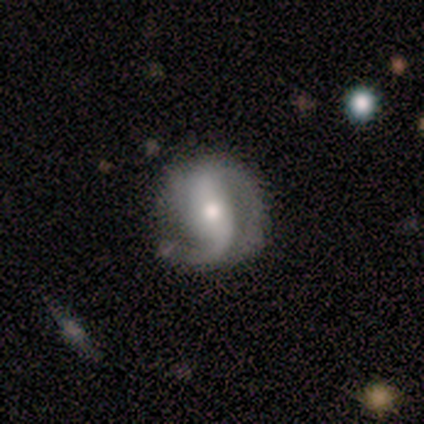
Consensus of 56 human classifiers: A featured or disk galaxy (82%) with no bar (45%), 2 (80%) loose (51%) spiral arms (93%) and a moderate central bulge (70%).

Vote fractions:
- Smooth or featured? featured or disk: 82% / smooth: 12% / star or artifact: 5%
- Edge-on disk? no: 96% / yes: 4%
- Bar? no: 45% / strong: 34% / weak: 20%
- Spiral arms? yes: 93% / no: 7%
- Spiral winding? loose: 51% / medium: 32% / tight: 17%
- Spiral arm count? 2: 80% / 1: 12% / can't tell: 7% / 3: 0% / 4: 0% / more than 4: 0%
- Bulge size? moderate: 70% / small: 25% / large: 5% / dominant: 0% / none: 0%
- Merging? none: 60% / minor disturbance: 30% / major disturbance: 8% / merger: 2%